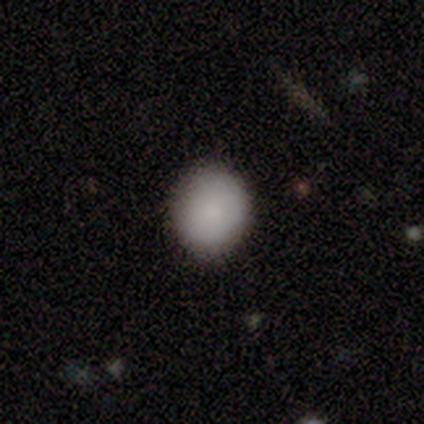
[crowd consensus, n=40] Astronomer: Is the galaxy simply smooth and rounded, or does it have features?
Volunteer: smooth — 92%.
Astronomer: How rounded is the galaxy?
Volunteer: round — 78%.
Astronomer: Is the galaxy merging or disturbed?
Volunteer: none — 62%.